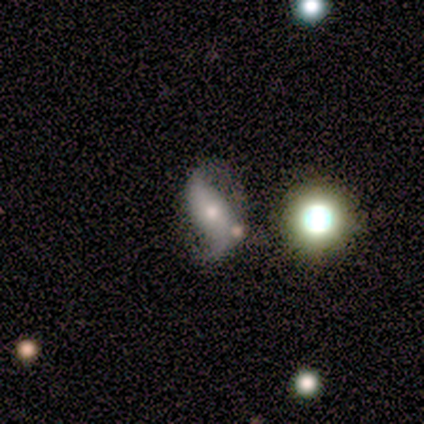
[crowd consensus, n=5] featured or disk 80%, star or artifact 20%, smooth 0%. Down the decision tree: edge-on disk — no (100%); bar — weak (50%, tied with no); spiral arms — yes (100%); spiral arm count — 2 (100%); spiral winding — loose (100%); bulge size — moderate (50%); merging — none (100%).